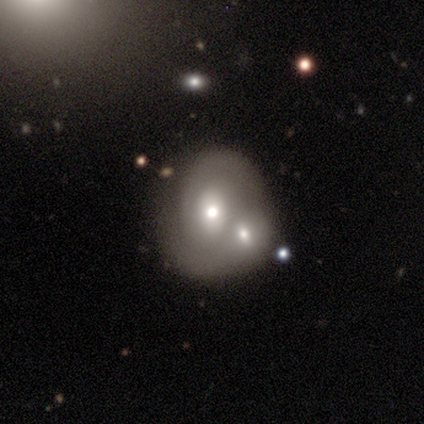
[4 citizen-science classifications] Smooth or featured? 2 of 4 (50%, tied with featured or disk) said smooth. How rounded? 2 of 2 (100%) said in between. Merging? 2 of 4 (50%) said merger.